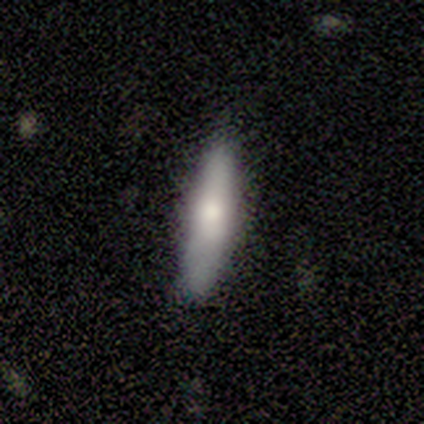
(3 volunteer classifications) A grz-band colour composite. It shows a featured or disk galaxy (67%) viewed edge-on (100%) with a rounded central bulge (100%). Merging: none (100%).